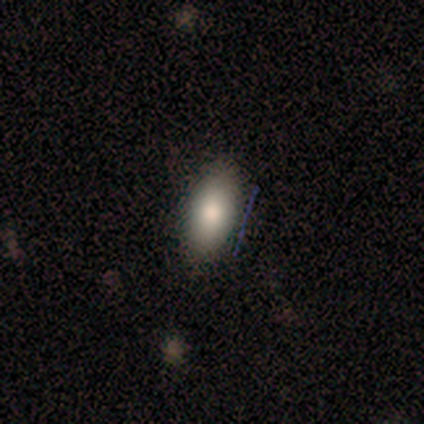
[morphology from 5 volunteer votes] Smooth or featured: smooth — 60% (star or artifact — 40%)
How rounded: in between — 67% (cigar-shaped — 33%)
Merging: none — 100%